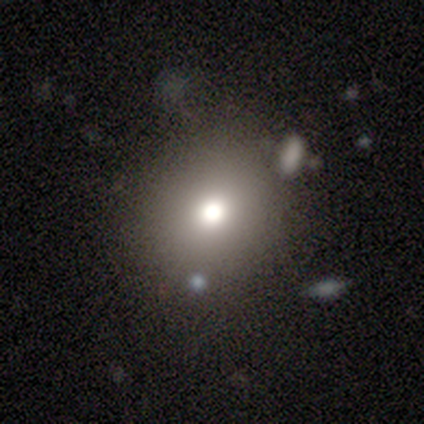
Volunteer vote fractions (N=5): A smooth galaxy with no disk features (40%, tied with star or artifact) that is round (50%, tied with in between).

Vote fractions:
- Smooth or featured? smooth: 40% (tied) / star or artifact: 40% (tied) / featured or disk: 20%
- How rounded? round: 50% (tied) / in between: 50% (tied) / cigar-shaped: 0%
- Merging? none: 67% / minor disturbance: 33% / major disturbance: 0% / merger: 0%